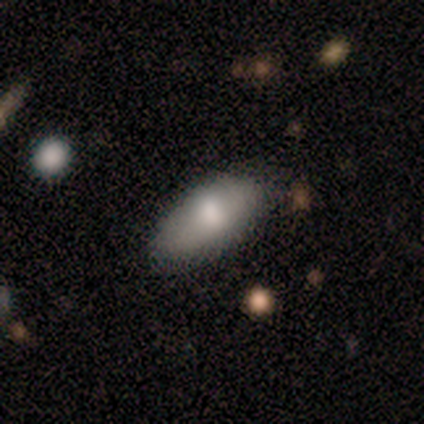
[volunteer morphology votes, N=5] This is clearly a smooth galaxy (80%). How rounded: clearly in between (100%). Merging: clearly none (80%).